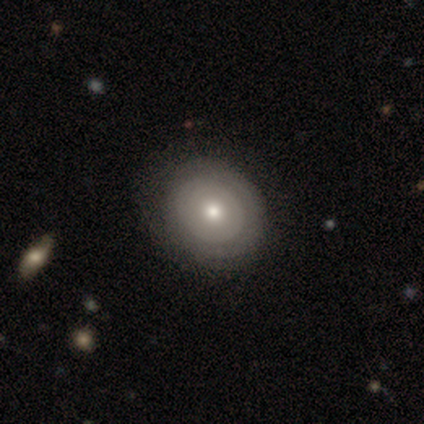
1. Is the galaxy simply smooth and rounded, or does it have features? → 53% smooth, 47% featured or disk, 0% star or artifact.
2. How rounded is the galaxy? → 67% round, 33% in between, 0% cigar-shaped.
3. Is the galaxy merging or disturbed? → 76% none, 24% minor disturbance, 0% major disturbance, 0% merger.